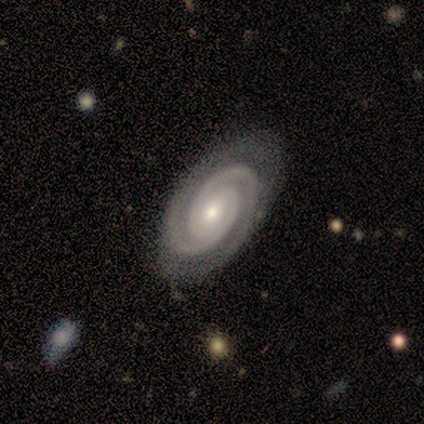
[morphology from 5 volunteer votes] This is clearly a featured or disk galaxy (100%). It is clearly not viewed edge-on (80%). Bar: likely no (75%). Spiral arm pattern: clearly yes (100%). Spiral arm count: clearly 2 (100%). Spiral winding: clearly tight (100%). Central bulge: likely small (75%). Merging: clearly none (80%).